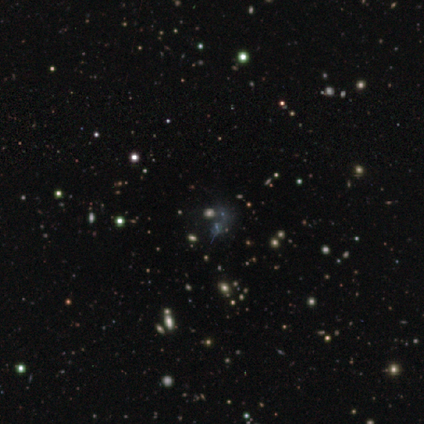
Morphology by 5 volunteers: This is likely a star or artifact rather than a galaxy (60%).